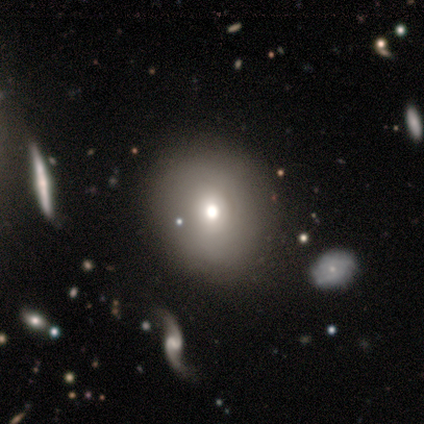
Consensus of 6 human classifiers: smooth 83%, featured or disk 17%, star or artifact 0%. Down the decision tree: how rounded — round (100%); merging — none (50%).